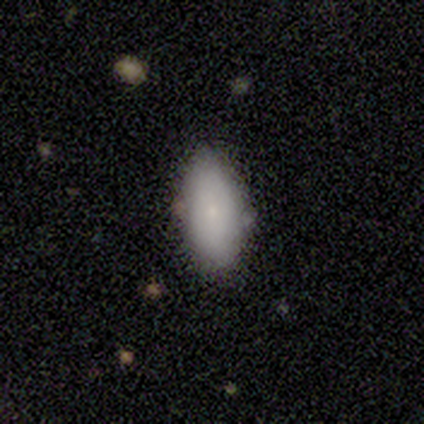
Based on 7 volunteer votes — This is clearly a smooth galaxy (86%). How rounded: clearly in between (100%). Merging: clearly none (100%).